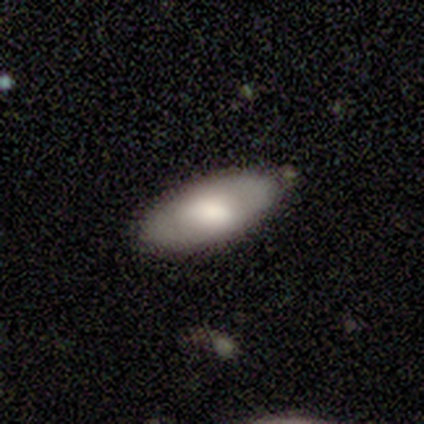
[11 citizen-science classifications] Q: Smooth or featured?
A: smooth (64%); runner-up: featured or disk (36%)
Q: How rounded?
A: in between (86%); runner-up: cigar-shaped (14%)
Q: Merging?
A: none (73%); runner-up: minor disturbance (18%)